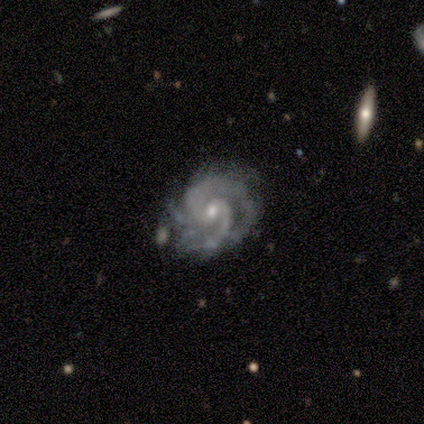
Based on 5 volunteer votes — Q: Smooth or featured?
A: featured or disk (100%)
Q: Edge-on disk?
A: no (100%)
Q: Bar?
A: no (100%)
Q: Spiral arms?
A: yes (100%)
Q: Spiral winding?
A: medium (80%); runner-up: tight (20%)
Q: Spiral arm count?
A: 2 (100%)
Q: Bulge size?
A: small (80%); runner-up: moderate (20%)
Q: Merging?
A: minor disturbance (80%); runner-up: none (20%)